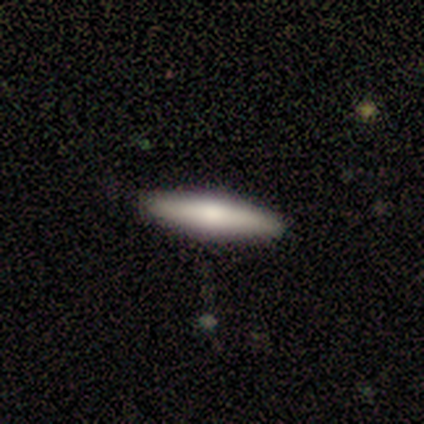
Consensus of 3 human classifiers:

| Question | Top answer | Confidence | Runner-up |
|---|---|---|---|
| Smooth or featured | smooth | 100% | — |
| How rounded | cigar-shaped | 67% | in between (33%) |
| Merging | none | 100% | — |